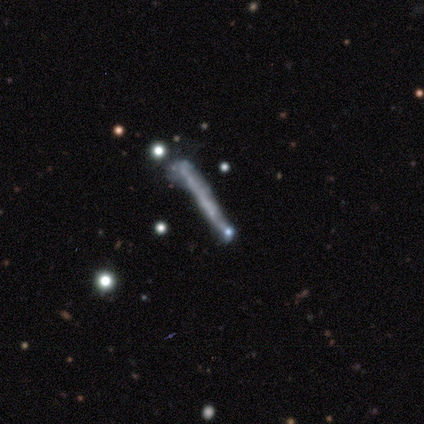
Smooth or featured? featured or disk (74%)
Edge-on disk? yes (72%)
Edge-on bulge? none (95%)
Merging? none (31%)